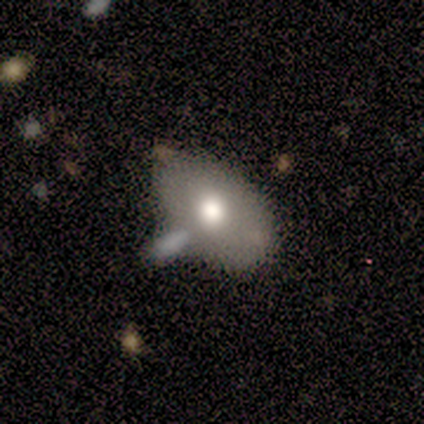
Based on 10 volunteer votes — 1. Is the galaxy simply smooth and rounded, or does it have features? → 100% smooth, 0% featured or disk, 0% star or artifact.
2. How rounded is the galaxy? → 80% in between, 20% round, 0% cigar-shaped.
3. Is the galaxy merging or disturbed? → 50% none, 40% merger, 10% minor disturbance, 0% major disturbance.